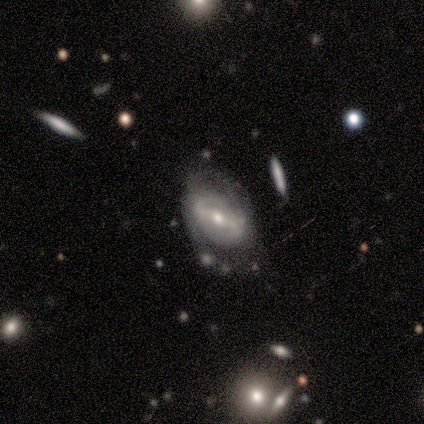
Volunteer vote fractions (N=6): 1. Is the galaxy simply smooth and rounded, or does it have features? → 67% featured or disk, 17% smooth, 17% star or artifact.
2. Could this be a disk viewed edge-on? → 100% no, 0% yes.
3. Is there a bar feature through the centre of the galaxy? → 75% strong, 25% weak, 0% no.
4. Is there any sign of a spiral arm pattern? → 50% yes (tied), 50% no (tied).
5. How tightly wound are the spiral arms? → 50% medium (tied), 50% loose (tied), 0% tight.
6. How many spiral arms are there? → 50% 2 (tied), 50% can't tell (tied), 0% 1, 0% 3, 0% 4, 0% more than 4.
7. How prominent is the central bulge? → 75% moderate, 25% small, 0% dominant, 0% large, 0% none.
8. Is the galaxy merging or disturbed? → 40% major disturbance, 20% none, 20% minor disturbance, 20% merger.